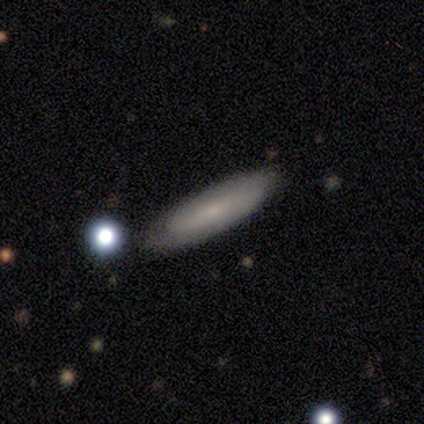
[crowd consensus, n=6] A smooth galaxy with no disk features (67%) that is cigar-shaped (75%). Merging: none (83%).